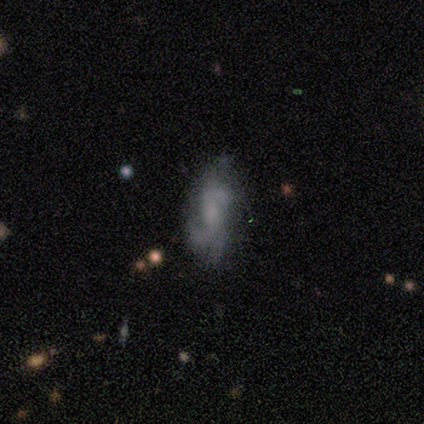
This appears to be a featured or disk galaxy (78%) with no bar (69%), 2 (59%) medium (52%) spiral arms (91%) and no central bulge (44%). Merging: none (62%).